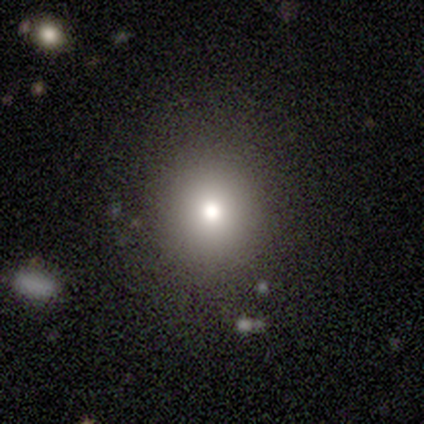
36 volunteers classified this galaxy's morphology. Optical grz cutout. It shows a smooth galaxy with no disk features (78%) that is round (96%). Merging: none (66%).